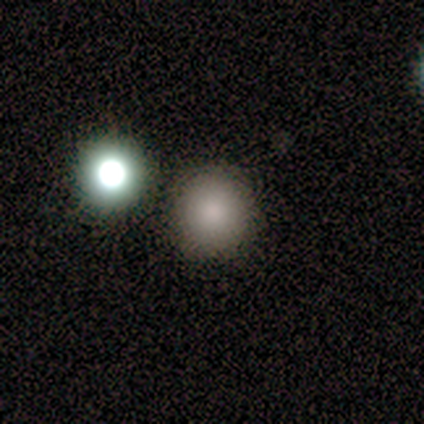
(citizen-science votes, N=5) A smooth galaxy with no disk features (40%, tied with star or artifact) that is round (100%).

Vote fractions:
- Smooth or featured? smooth: 40% (tied) / star or artifact: 40% (tied) / featured or disk: 20%
- How rounded? round: 100% / in between: 0% / cigar-shaped: 0%
- Merging? none: 67% / merger: 33% / minor disturbance: 0% / major disturbance: 0%